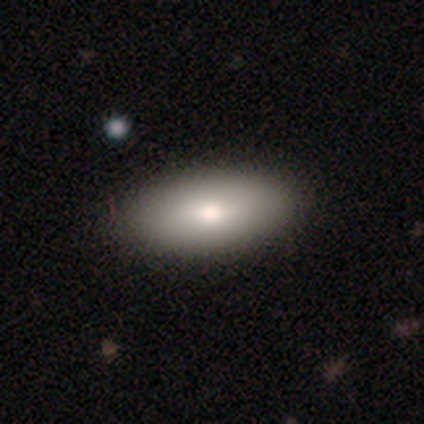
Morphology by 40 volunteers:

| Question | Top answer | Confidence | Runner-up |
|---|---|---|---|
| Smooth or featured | smooth | 82% | featured or disk (18%) |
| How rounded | in between | 88% | cigar-shaped (12%) |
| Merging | none | 57% | minor disturbance (2%) |